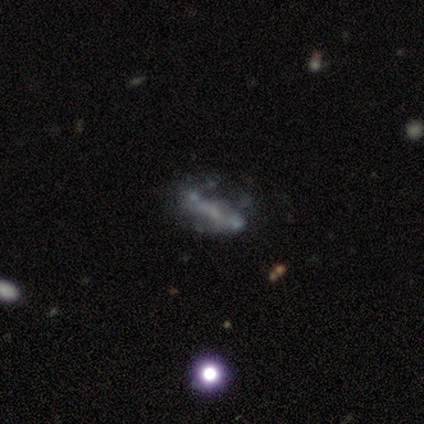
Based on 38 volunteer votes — Smooth or featured? 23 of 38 (61%) said featured or disk. Edge-on disk? 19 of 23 (83%) said no. Bar? 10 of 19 (53%) said no. Spiral arms? 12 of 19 (63%) said no. Bulge size? 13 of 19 (68%) said none. Merging? 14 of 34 (41%, tied with major disturbance) said none.